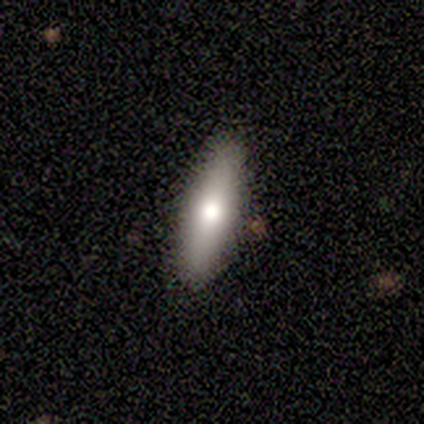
This appears to be a smooth galaxy with no disk features (57%) that is in between round and cigar-shaped (50%, tied with cigar-shaped). Merging: none (100%).